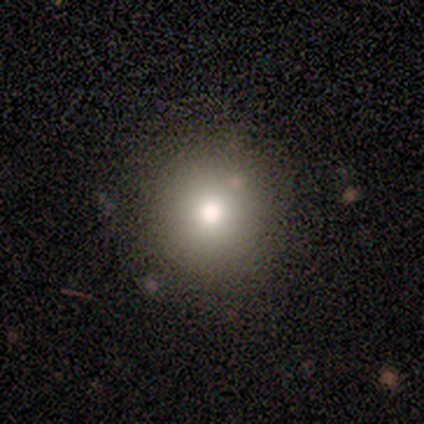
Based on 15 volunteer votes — smooth-or-featured: smooth: 73% | featured or disk: 13% | star or artifact: 13%
  how-rounded: round: 100% | in between: 0% | cigar-shaped: 0%
  merging: none: 92% | major disturbance: 8% | minor disturbance: 0% | merger: 0%